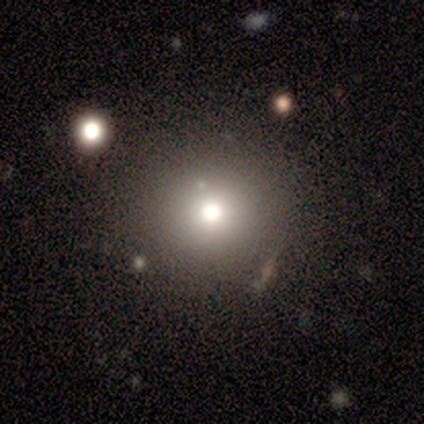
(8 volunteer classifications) smooth-or-featured: smooth: 50% (tied) | star or artifact: 50% (tied) | featured or disk: 0%
  how-rounded: round: 100% | in between: 0% | cigar-shaped: 0%
  merging: none: 100% | minor disturbance: 0% | major disturbance: 0% | merger: 0%